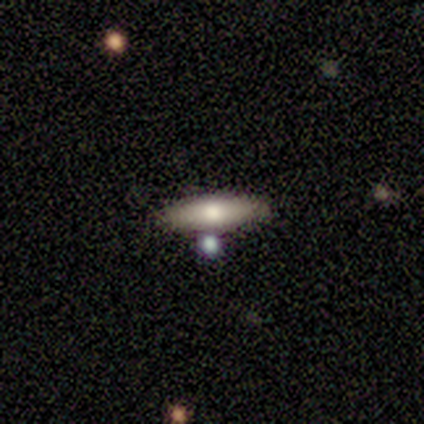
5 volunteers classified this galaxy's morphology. This appears to be a smooth galaxy with no disk features (60%) that is cigar-shaped (67%). Merging: none (75%).